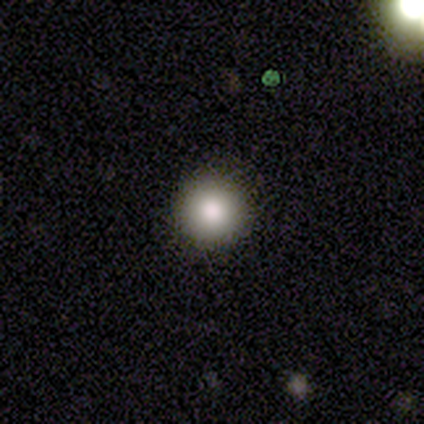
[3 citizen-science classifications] Morphology: type=smooth (100%); roundness=round (100%); merging=none (100%).